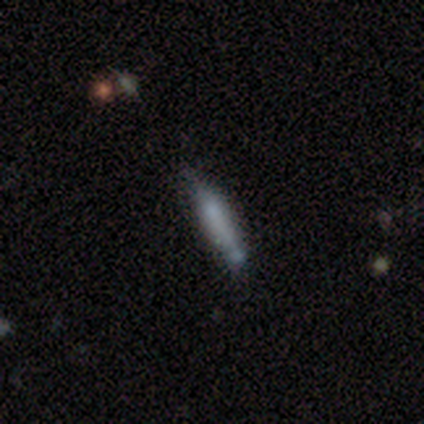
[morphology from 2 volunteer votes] Smooth or featured: smooth — 100%
How rounded: cigar-shaped — 100%
Merging: none — 50% (tied with minor disturbance — 50%)